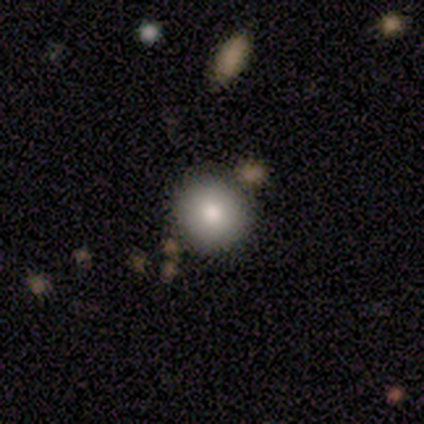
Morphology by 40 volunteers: Smooth or featured?
  - smooth: 90% *
  - featured or disk: 10%
  - star or artifact: 0%
How rounded?
  - round: 94% *
  - in between: 6%
  - cigar-shaped: 0%
Merging?
  - none: 50% *
  - minor disturbance: 8%
  - major disturbance: 2%
  - merger: 2%